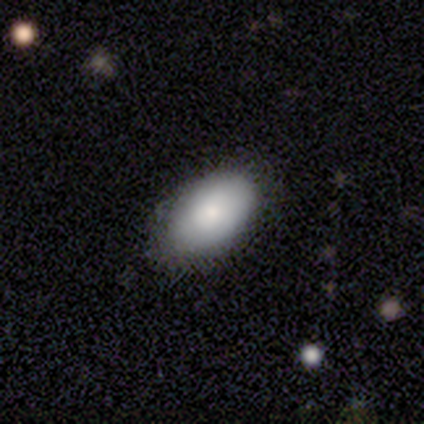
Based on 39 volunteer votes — Overall: smooth (87%). How rounded: in between (91%). Merging: none (74%).